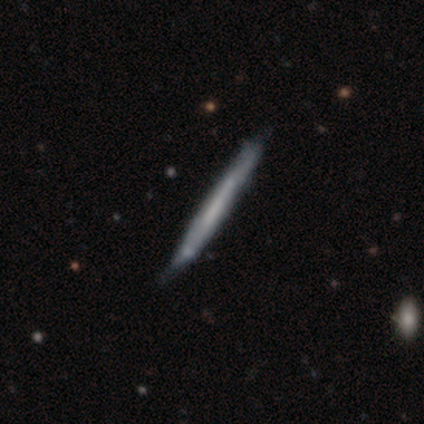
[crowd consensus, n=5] This appears to be a featured or disk galaxy (60%) viewed edge-on (100%) with no central bulge (100%). Merging: none (50%).